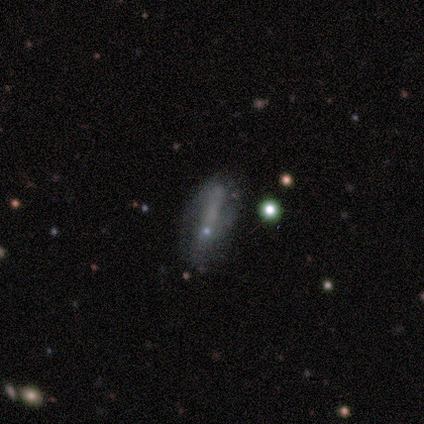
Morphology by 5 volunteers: smooth-or-featured: featured or disk: 60% | smooth: 40% | star or artifact: 0%
  disk-edge-on: yes: 100% | no: 0%
    edge-on-bulge: none: 67% | rounded: 33% | boxy: 0%
  merging: none: 40% | minor disturbance: 20% | major disturbance: 20% | merger: 20%